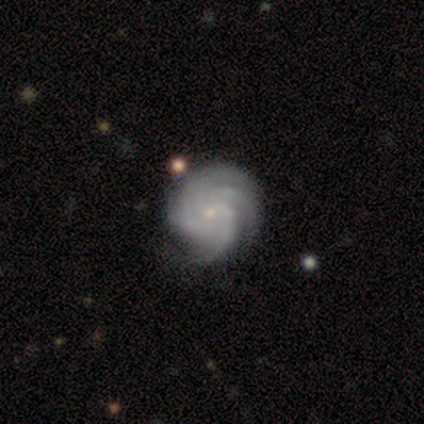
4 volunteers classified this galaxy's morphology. Volunteers were most divided on "bar" (2-way tie): weak: 50%, no: 50%, strong: 0%; "spiral arm count" (2-way tie): 3: 50%, 4: 50%, 1: 0%, 2: 0%, more than 4: 0%, can't tell: 0%. More confident: spiral arms — yes (100%); spiral winding — tight (100%); bulge size — small (100%); smooth or featured — featured or disk (75%); edge-on disk — no (67%); merging — none (50%).